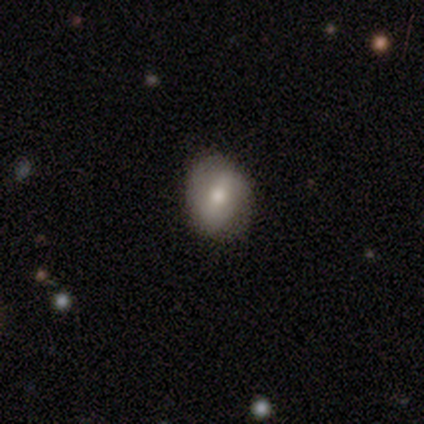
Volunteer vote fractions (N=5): smooth-or-featured: smooth: 80% | featured or disk: 20% | star or artifact: 0%
  how-rounded: round: 50% (tied) | in between: 50% (tied) | cigar-shaped: 0%
  merging: none: 100% | minor disturbance: 0% | major disturbance: 0% | merger: 0%